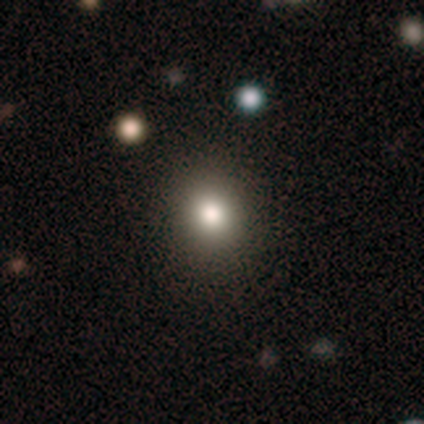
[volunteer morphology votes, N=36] A smooth galaxy with no disk features (69%) that is round (84%). Merging: none (94%).